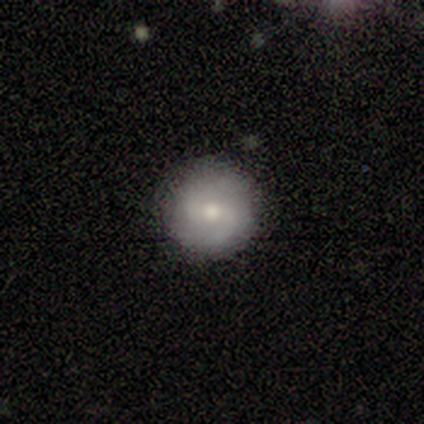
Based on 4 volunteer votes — Morphology: type=featured or disk (75%); edge-on=no (67%); bar=weak (50%, tied with no); spiral arms=yes (100%); winding=medium (100%); arm count=2 (100%); bulge=moderate (50%, tied with small); merging=none (100%).